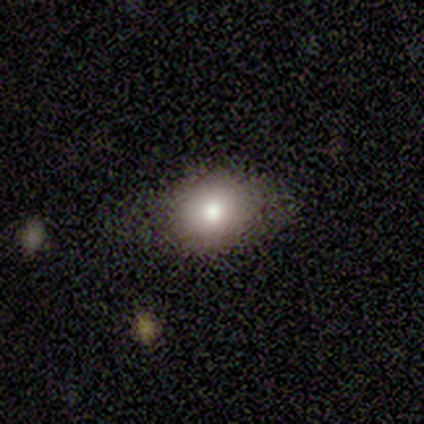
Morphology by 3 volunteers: smooth 100%, featured or disk 0%, star or artifact 0%. Down the decision tree: how rounded — round (100%); merging — none (67%).